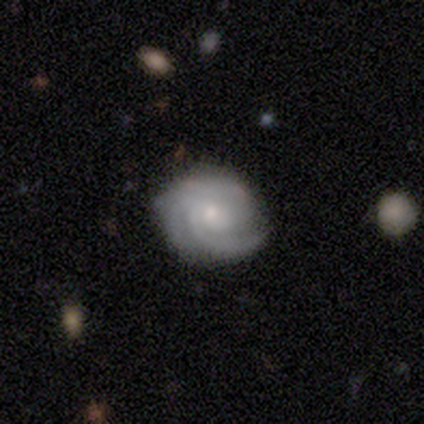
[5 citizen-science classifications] Smooth or featured?
  - featured or disk: 80% *
  - smooth: 20%
  - star or artifact: 0%
Edge-on disk?
  - no: 100% *
  - yes: 0%
Bar?
  - no: 50% *
  - strong: 25%
  - weak: 25%
Spiral arms?
  - yes: 100% *
  - no: 0%
Spiral winding?
  - tight: 100% *
  - medium: 0%
  - loose: 0%
Spiral arm count?
  - 3: 50% *
  - 2: 25%
  - 4: 25%
  - 1: 0%
  - more than 4: 0%
  - can't tell: 0%
Bulge size?
  - small: 50% *
  - moderate: 25%
  - none: 25%
  - dominant: 0%
  - large: 0%
Merging?
  - none: 60% *
  - minor disturbance: 20%
  - major disturbance: 20%
  - merger: 0%